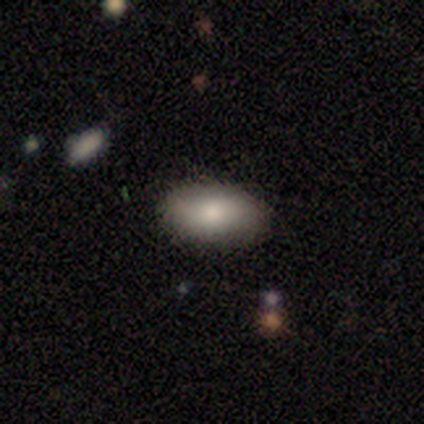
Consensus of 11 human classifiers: Smooth or featured? 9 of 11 (82%) said smooth. How rounded? 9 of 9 (100%) said in between. Merging? 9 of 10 (90%) said none.